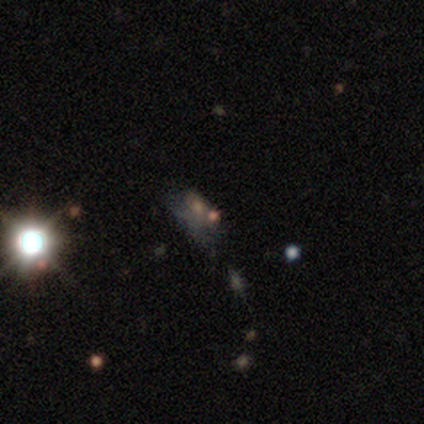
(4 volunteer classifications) A smooth galaxy with no disk features (50%, tied with star or artifact) that is in between round and cigar-shaped (100%).

Vote fractions:
- Smooth or featured? smooth: 50% (tied) / star or artifact: 50% (tied) / featured or disk: 0%
- How rounded? in between: 100% / round: 0% / cigar-shaped: 0%
- Merging? none: 50% (tied) / major disturbance: 50% (tied) / minor disturbance: 0% / merger: 0%